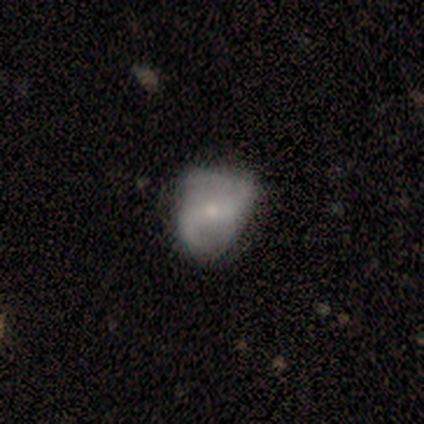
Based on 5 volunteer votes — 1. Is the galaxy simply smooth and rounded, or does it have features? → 60% featured or disk, 20% smooth, 20% star or artifact.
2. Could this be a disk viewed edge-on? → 100% no, 0% yes.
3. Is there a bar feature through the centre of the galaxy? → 67% no, 33% strong, 0% weak.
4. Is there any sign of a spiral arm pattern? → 100% yes, 0% no.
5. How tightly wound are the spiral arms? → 67% loose, 33% tight, 0% medium.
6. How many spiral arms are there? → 100% 2, 0% 1, 0% 3, 0% 4, 0% more than 4, 0% can't tell.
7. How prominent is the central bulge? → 67% small, 33% moderate, 0% dominant, 0% large, 0% none.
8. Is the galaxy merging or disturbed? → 50% none, 25% minor disturbance, 25% major disturbance, 0% merger.